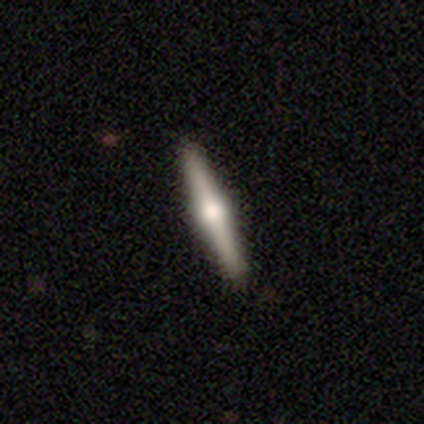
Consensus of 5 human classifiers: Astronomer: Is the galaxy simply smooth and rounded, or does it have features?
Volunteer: featured or disk — 80%.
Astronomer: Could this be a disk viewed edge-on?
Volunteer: yes — 100%.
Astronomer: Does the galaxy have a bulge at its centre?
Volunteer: rounded — 100%.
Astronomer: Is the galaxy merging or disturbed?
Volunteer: none — 100%.